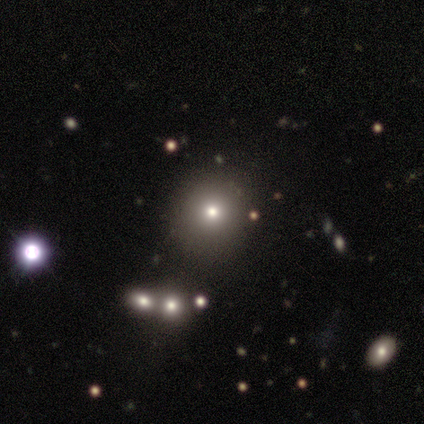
This appears to be a smooth galaxy with no disk features (54%) that is round (86%). Merging: none (92%).